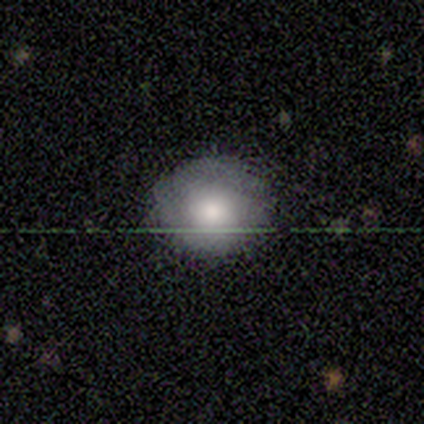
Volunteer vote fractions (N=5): Smooth or featured? 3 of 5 (60%) said smooth. How rounded? 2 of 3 (67%) said round. Merging? 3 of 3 (100%) said none.